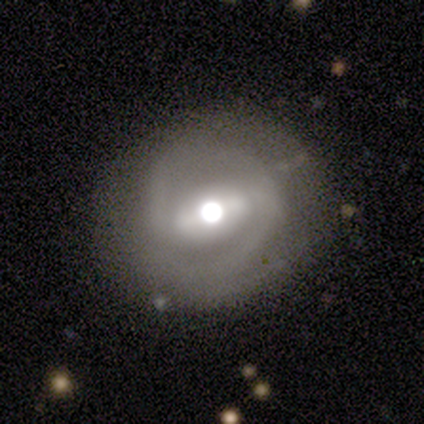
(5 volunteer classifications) Overall: featured or disk (60%; smooth 20%). Edge-on disk: no (67%; yes 33%). Bar: strong (100%). Spiral arms: yes (100%). Spiral arm count: 1 (50%, tied with 2). Spiral winding: tight (50%, tied with loose). Bulge size: large (50%, tied with moderate). Merging: none (50%, tied with minor disturbance).